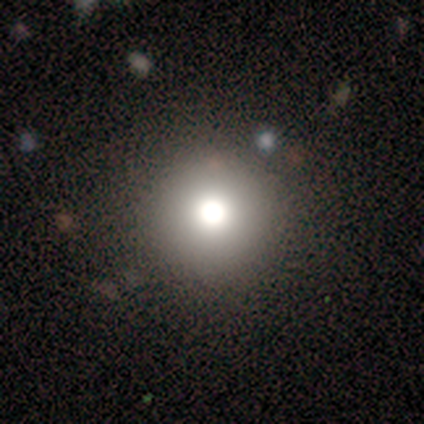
Smooth or featured? 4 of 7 (57%) said smooth. How rounded? 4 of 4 (100%) said round. Merging? 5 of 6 (83%) said none.